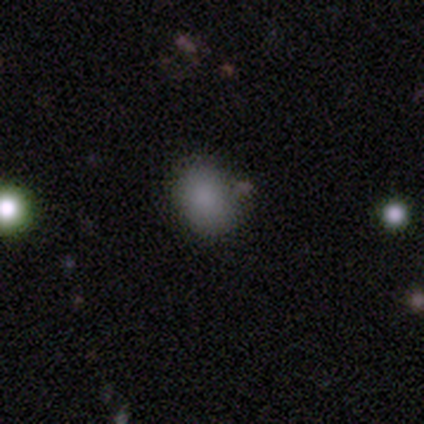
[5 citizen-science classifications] Morphology: type=smooth (100%); roundness=in between (80%); merging=none (80%).